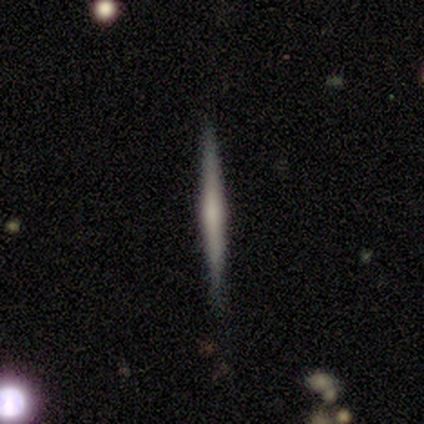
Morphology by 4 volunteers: A featured or disk galaxy (75%) viewed edge-on (100%) with a rounded central bulge (67%). Merging: none (100%).